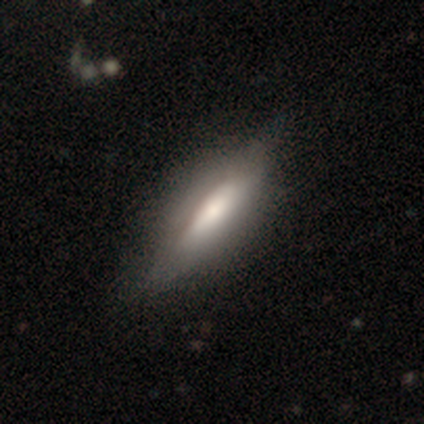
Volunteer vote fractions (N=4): Smooth or featured?
  - featured or disk: 75% *
  - smooth: 25%
  - star or artifact: 0%
Edge-on disk?
  - yes: 100% *
  - no: 0%
Edge-on bulge?
  - rounded: 67% *
  - none: 33%
  - boxy: 0%
Merging?
  - none: 50% * (tied)
  - minor disturbance: 50% * (tied)
  - major disturbance: 0%
  - merger: 0%